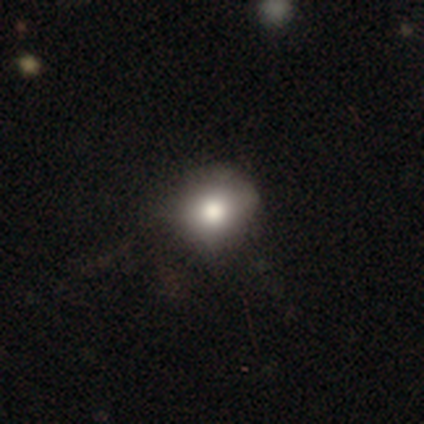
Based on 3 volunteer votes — Smooth or featured: smooth — 100%
How rounded: round — 67% (in between — 33%)
Merging: none — 67% (minor disturbance — 33%)